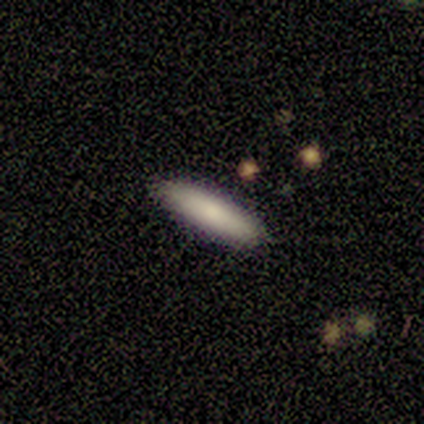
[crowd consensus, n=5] smooth_or_featured: smooth (p=1.00)
how_rounded: cigar-shaped (p=0.80) [alt: in between p=0.20]
merging: none (p=0.80) [alt: merger p=0.20]